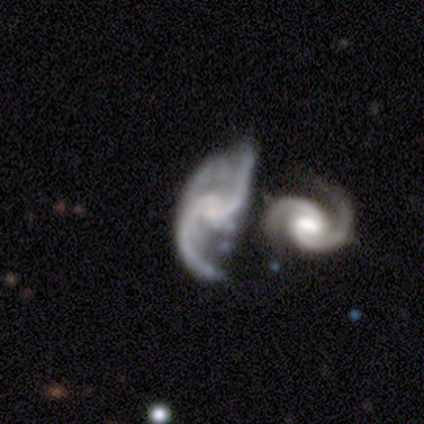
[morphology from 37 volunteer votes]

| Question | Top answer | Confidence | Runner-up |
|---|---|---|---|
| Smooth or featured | featured or disk | 92% | smooth (5%) |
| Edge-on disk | no | 100% | — |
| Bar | no | 50% | weak (41%) |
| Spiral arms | yes | 100% | — |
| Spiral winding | loose | 59% | medium (32%) |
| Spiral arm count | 2 | 97% | 3 (3%) |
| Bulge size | small | 56% | moderate (24%) |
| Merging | none | 31% | tied: merger (31%) |